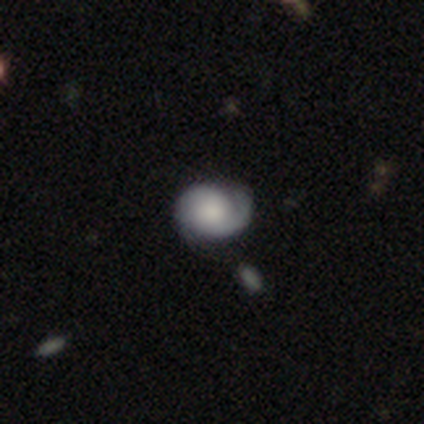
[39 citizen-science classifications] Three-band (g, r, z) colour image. It shows a featured or disk galaxy (62%) with no bar (77%), 2 (55%) tight (60%) spiral arms (91%) and a large central bulge (32%). Merging: none (56%).